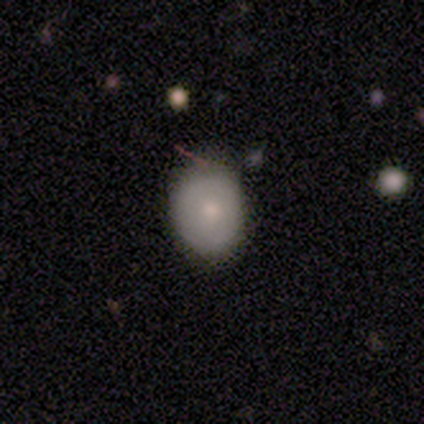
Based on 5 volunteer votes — Q: Smooth or featured?
A: smooth (100%)
Q: How rounded?
A: round (60%); runner-up: in between (40%)
Q: Merging?
A: none (80%); runner-up: minor disturbance (20%)